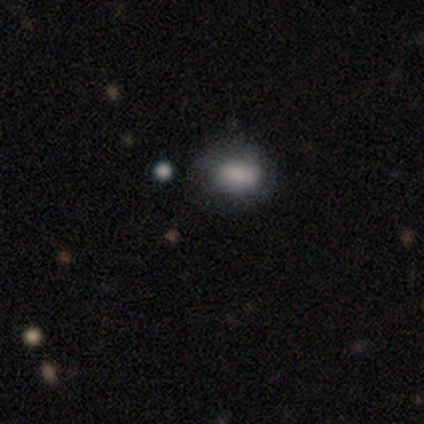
smooth 100%, featured or disk 0%, star or artifact 0%. Down the decision tree: how rounded — in between (67%); merging — none (100%).